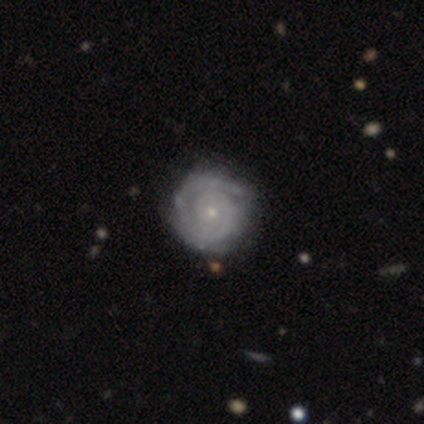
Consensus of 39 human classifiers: This is clearly a featured or disk galaxy (97%). It is clearly not viewed edge-on (100%). Bar: clearly no (84%). Spiral arm pattern: clearly yes (100%). Spiral arm count: possibly 2 (50%). Spiral winding: clearly tight (95%). Central bulge: likely small (71%). Merging: possibly none (54%).